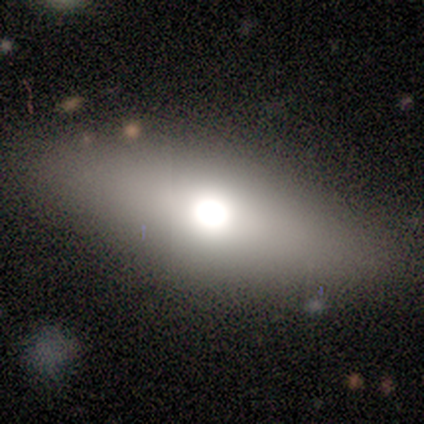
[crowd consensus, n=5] smooth_or_featured: featured or disk (p=0.60) [alt: smooth p=0.40]
disk_edge_on: no (p=0.67) [alt: yes p=0.33]
bar: no (p=1.00)
has_spiral_arms: no (p=1.00)
bulge_size: moderate (p=1.00)
merging: none (p=0.80) [alt: minor disturbance p=0.20]